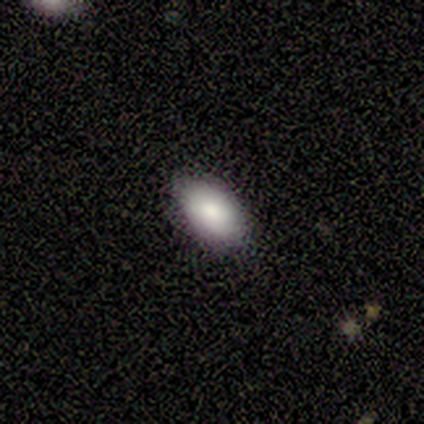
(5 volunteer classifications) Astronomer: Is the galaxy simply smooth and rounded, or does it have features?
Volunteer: smooth — 80%.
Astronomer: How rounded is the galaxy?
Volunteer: in between — 75%.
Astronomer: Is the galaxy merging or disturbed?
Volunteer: none — 100%.